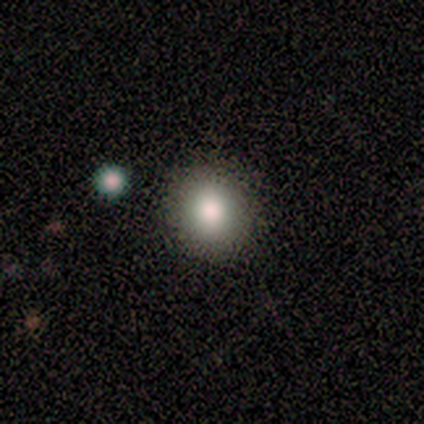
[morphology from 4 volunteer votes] Volunteers were most divided on "how rounded" (2-way tie): round: 50%, in between: 50%, cigar-shaped: 0%. More confident: smooth or featured — smooth (100%); merging — none (75%).